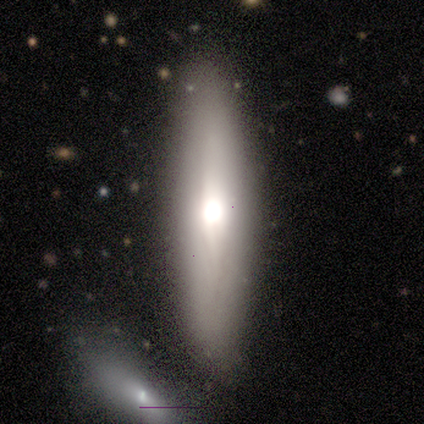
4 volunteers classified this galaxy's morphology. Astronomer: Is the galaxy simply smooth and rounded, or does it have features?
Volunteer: featured or disk — 75%.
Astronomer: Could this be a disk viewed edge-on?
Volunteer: yes — 100%.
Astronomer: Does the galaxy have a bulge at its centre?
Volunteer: rounded — 100%.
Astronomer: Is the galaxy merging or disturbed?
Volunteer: none — 100%.